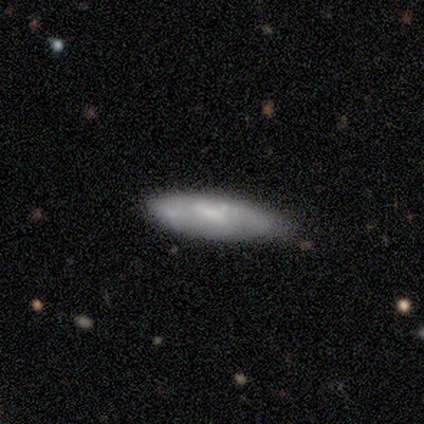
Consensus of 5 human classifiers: Overall: featured or disk (80%). Edge-on disk: yes (50%, tied with no). Edge-on bulge: boxy (50%, tied with none). Merging: none (80%).